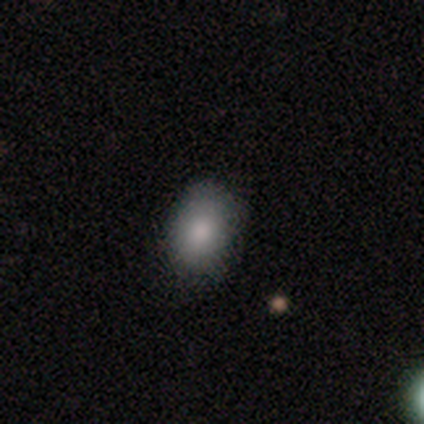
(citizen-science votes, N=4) Q: Smooth or featured?
A: smooth (75%); runner-up: featured or disk (25%)
Q: How rounded?
A: in between (100%)
Q: Merging?
A: none (100%)